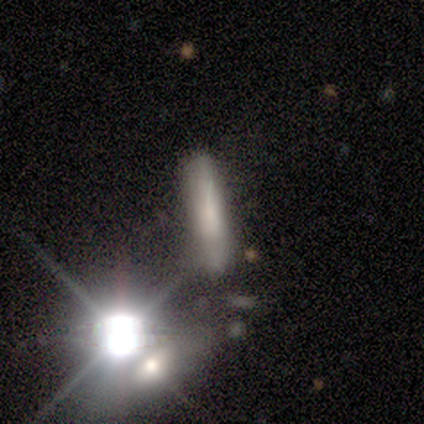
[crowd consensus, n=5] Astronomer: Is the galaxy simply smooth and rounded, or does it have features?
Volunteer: smooth — 80%.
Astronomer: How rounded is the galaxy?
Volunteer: cigar-shaped — 100%.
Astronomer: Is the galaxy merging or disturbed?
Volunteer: none — 100%.